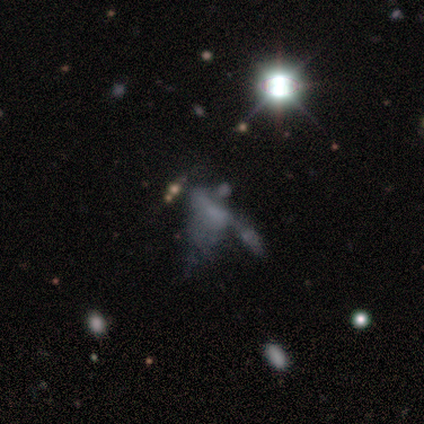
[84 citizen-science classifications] This appears to be a star or artifact, not a galaxy (54%).